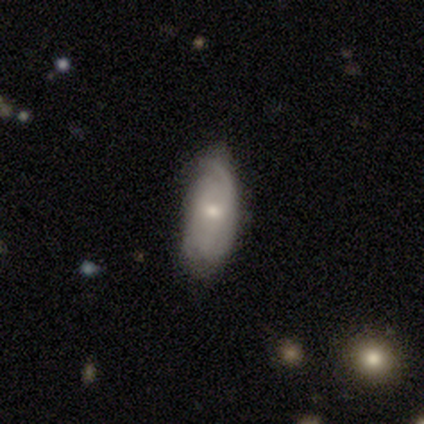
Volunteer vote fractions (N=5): smooth_or_featured: featured or disk (p=0.60) [alt: smooth p=0.40]
disk_edge_on: no (p=1.00)
bar: no (p=0.67) [alt: weak p=0.33]
has_spiral_arms: yes (p=1.00)
spiral_winding: tight (p=1.00)
spiral_arm_count: 2 (p=0.33) [tied with: more than 4 p=0.33, can't tell p=0.33]
bulge_size: small (p=0.67) [alt: moderate p=0.33]
merging: none (p=0.60) [alt: minor disturbance p=0.40]